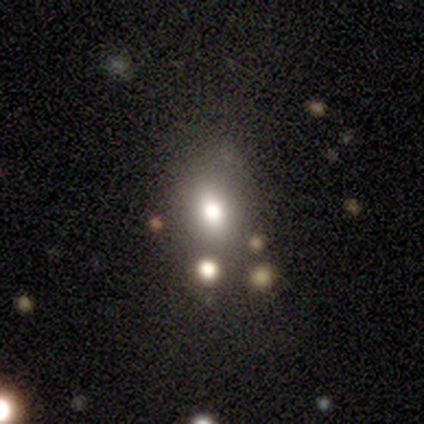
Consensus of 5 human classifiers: Smooth or featured: smooth — 80% (featured or disk — 20%)
How rounded: round — 50% (tied with in between — 50%)
Merging: none — 60% (minor disturbance — 20%)